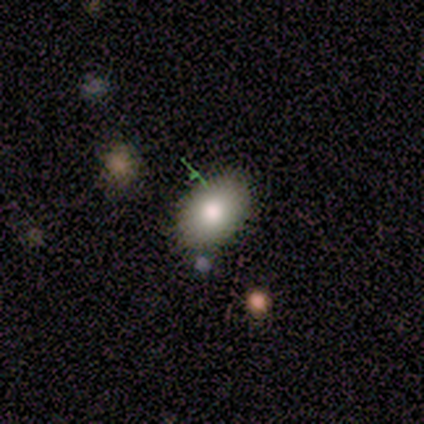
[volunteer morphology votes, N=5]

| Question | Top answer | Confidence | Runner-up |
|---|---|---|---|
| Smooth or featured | smooth | 100% | — |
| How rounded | in between | 100% | — |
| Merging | none | 100% | — |